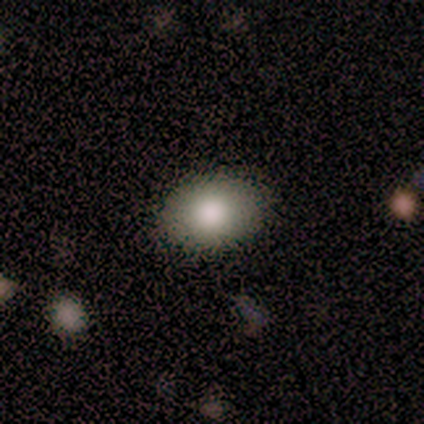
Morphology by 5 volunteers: Q: Smooth or featured?
A: smooth (100%)
Q: How rounded?
A: in between (100%)
Q: Merging?
A: none (80%); runner-up: minor disturbance (20%)